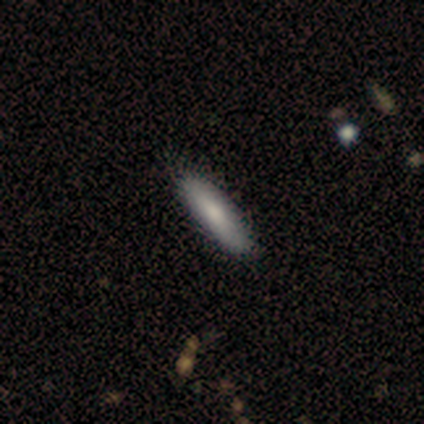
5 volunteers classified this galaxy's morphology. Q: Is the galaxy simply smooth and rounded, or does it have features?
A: smooth — 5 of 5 (100%).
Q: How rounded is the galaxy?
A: cigar-shaped — 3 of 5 (60%).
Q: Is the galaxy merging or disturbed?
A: none — 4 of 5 (80%).